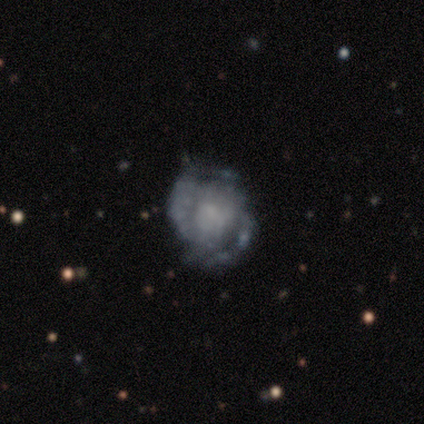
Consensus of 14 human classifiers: This is likely a featured or disk galaxy (79%). It is clearly not viewed edge-on (100%). Bar: clearly no (91%). Spiral arm pattern: possibly yes (55%). Spiral arm count: possibly 2 (50%, tied with can't tell). Spiral winding: possibly tight (50%). Central bulge: likely none (73%). Merging: possibly none (46%).